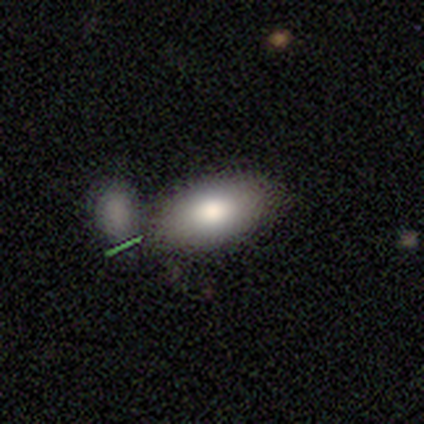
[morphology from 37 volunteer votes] Q: Smooth or featured?
A: smooth (73%); runner-up: featured or disk (19%)
Q: How rounded?
A: in between (96%); runner-up: round (4%)
Q: Merging?
A: merger (53%); runner-up: none (32%)